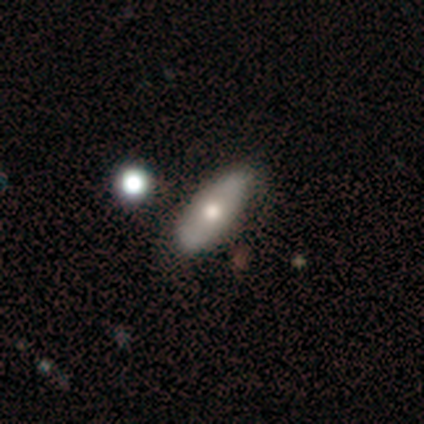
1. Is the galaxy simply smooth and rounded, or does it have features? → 59% smooth, 39% featured or disk, 2% star or artifact.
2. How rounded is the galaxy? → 71% in between, 27% cigar-shaped, 2% round.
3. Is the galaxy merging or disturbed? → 74% none, 19% minor disturbance, 5% merger, 2% major disturbance.